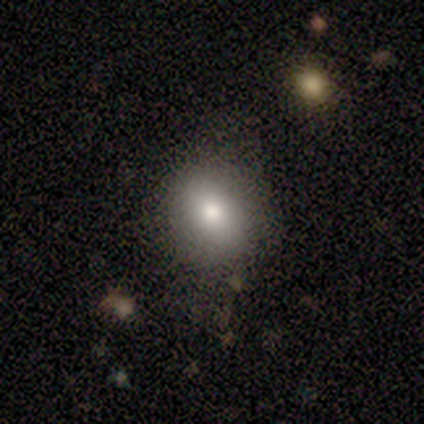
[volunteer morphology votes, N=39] A smooth galaxy with no disk features (77%) that is round (67%).

Vote fractions:
- Smooth or featured? smooth: 77% / star or artifact: 15% / featured or disk: 8%
- How rounded? round: 67% / in between: 33% / cigar-shaped: 0%
- Merging? none: 91% / minor disturbance: 6% / major disturbance: 3% / merger: 0%